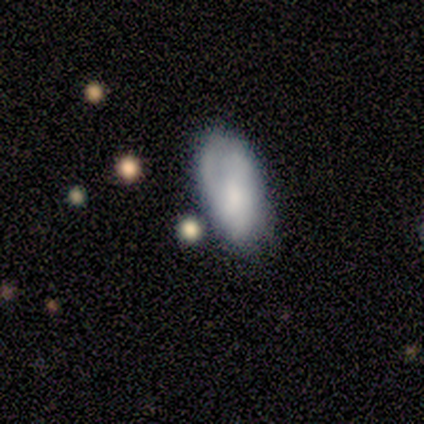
Smooth or featured: smooth — 75% (featured or disk — 25%)
How rounded: in between — 100%
Merging: none — 100%